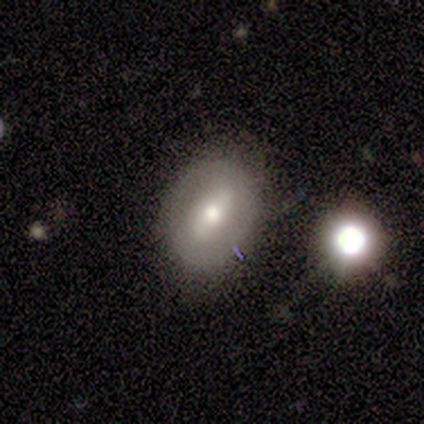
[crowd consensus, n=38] smooth_or_featured: featured or disk (p=0.53) [alt: smooth p=0.37]
disk_edge_on: no (p=0.90) [alt: yes p=0.10]
bar: strong (p=0.56) [alt: weak p=0.22]
has_spiral_arms: no (p=0.83) [alt: yes p=0.17]
bulge_size: moderate (p=0.78) [alt: large p=0.11]
merging: none (p=0.79) [alt: minor disturbance p=0.18]